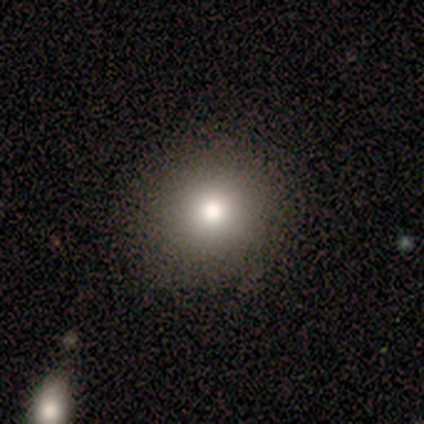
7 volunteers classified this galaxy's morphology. Q: Smooth or featured?
A: smooth (71%); runner-up: star or artifact (29%)
Q: How rounded?
A: round (100%)
Q: Merging?
A: none (80%); runner-up: minor disturbance (20%)